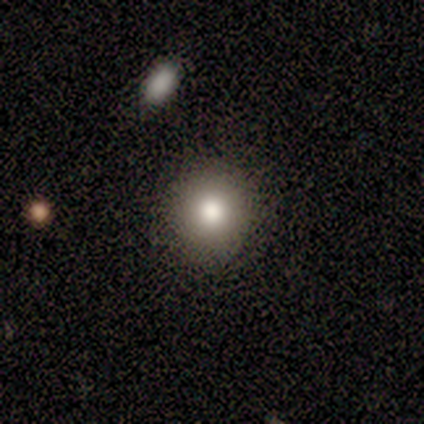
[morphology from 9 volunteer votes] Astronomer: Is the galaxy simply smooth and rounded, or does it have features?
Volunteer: smooth — 100%.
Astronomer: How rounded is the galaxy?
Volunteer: round — 100%.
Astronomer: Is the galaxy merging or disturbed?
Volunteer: none — 78%.